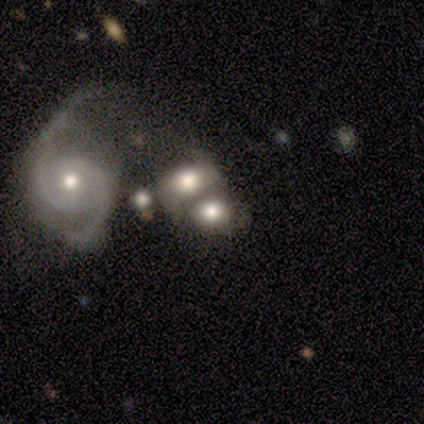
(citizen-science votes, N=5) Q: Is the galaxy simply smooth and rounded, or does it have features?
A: featured or disk — 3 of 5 (60%).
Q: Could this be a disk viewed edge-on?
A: no — 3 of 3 (100%).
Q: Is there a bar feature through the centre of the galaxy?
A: no — 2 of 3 (67%).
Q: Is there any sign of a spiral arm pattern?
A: yes — 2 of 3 (67%).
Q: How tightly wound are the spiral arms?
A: tight — 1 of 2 (50%, tied with loose).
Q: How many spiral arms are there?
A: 2 — 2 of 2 (100%).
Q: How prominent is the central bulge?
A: large — 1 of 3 (33%, tied with moderate and small).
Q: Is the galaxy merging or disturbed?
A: major disturbance — 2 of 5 (40%, tied with merger).